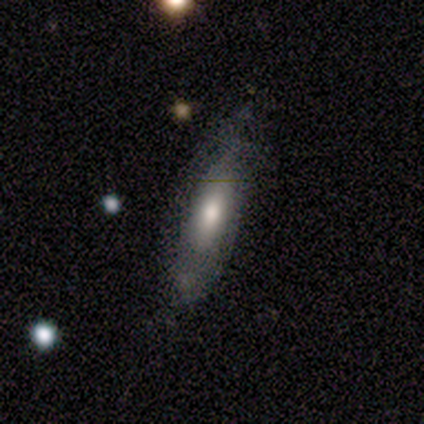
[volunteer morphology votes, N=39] Overall: smooth (49%, tied with featured or disk). How rounded: in between (53%; cigar-shaped 47%). Merging: none (68%).